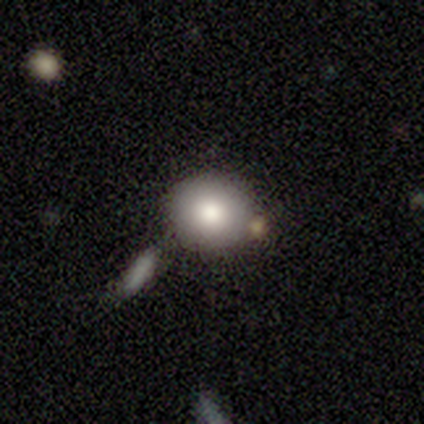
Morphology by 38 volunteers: Smooth or featured? 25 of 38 (66%) said smooth. How rounded? 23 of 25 (92%) said round. Merging? 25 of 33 (76%) said none.